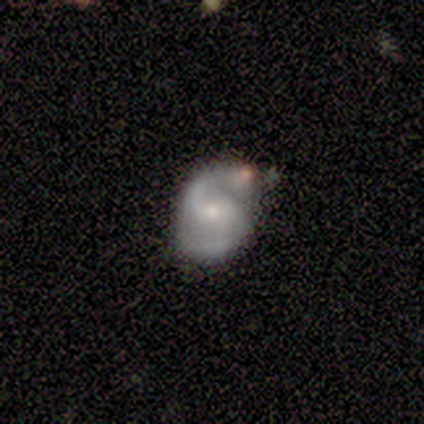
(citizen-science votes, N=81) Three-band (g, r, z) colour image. It shows a featured or disk galaxy (91%) with no bar (58%), 2 (99%) medium (60%) spiral arms (97%) and a small central bulge (57%). Merging: none (62%).